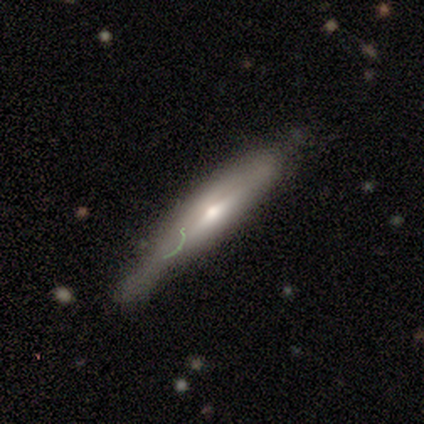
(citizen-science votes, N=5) This appears to be a featured or disk galaxy (60%) viewed edge-on (100%) with a rounded central bulge (100%). Merging: minor disturbance (80%).